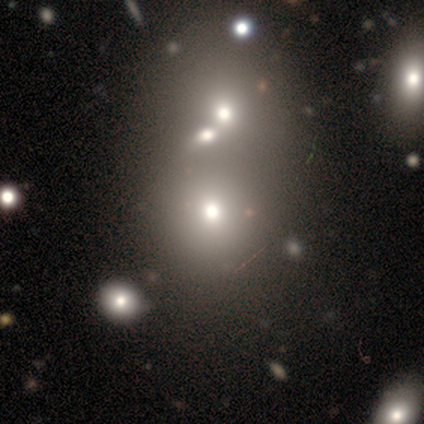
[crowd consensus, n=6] This appears to be a smooth galaxy with no disk features (67%) that is round (75%). Merging: merger (60%).